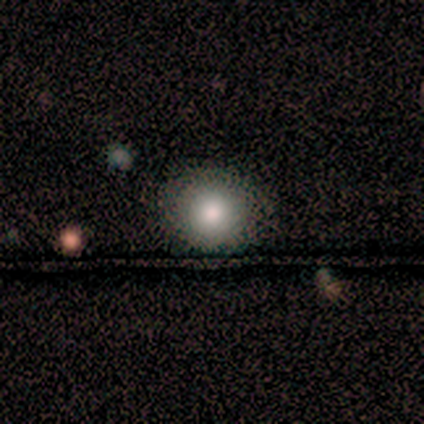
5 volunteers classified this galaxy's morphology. A smooth galaxy with no disk features (60%) that is round (100%). Merging: none (75%).